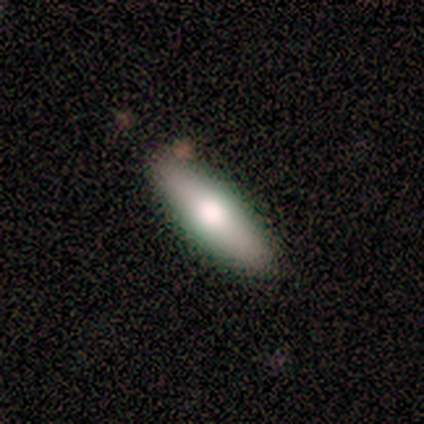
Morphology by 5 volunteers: type=featured or disk (60%); edge-on=yes (100%); edge-on bulge=rounded (100%); merging=none (100%).